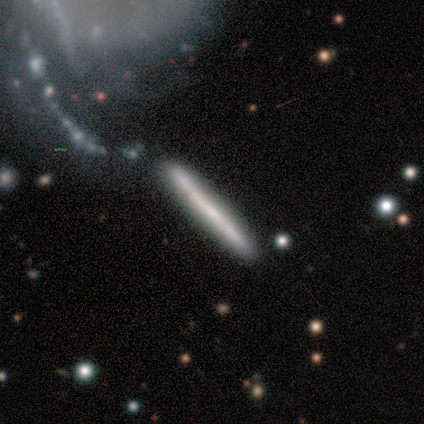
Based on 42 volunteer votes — Smooth or featured: featured or disk — 55% (smooth — 43%)
Edge-on disk: yes — 91% (no — 9%)
Edge-on bulge: none — 90% (rounded — 10%)
Merging: none — 80% (minor disturbance — 20%)